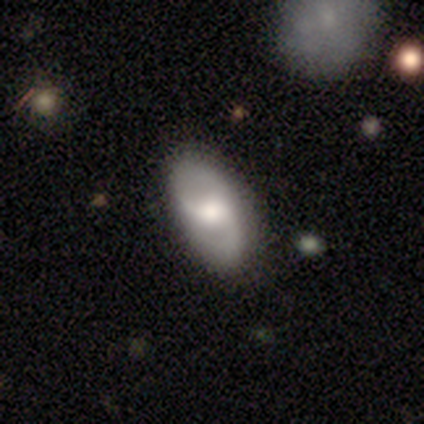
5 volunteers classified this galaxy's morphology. Q: Smooth or featured?
A: featured or disk (60%); runner-up: smooth (40%)
Q: Edge-on disk?
A: no (100%)
Q: Bar?
A: strong (33%); tied with: weak (33%); no (33%)
Q: Spiral arms?
A: yes (67%); runner-up: no (33%)
Q: Spiral winding?
A: medium (50%); tied with: loose (50%)
Q: Spiral arm count?
A: 2 (100%)
Q: Bulge size?
A: dominant (33%); tied with: large (33%); moderate (33%)
Q: Merging?
A: none (80%); runner-up: minor disturbance (20%)